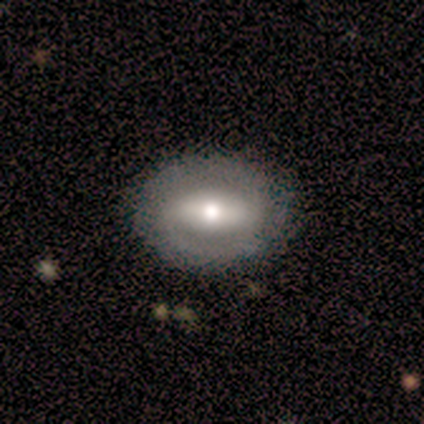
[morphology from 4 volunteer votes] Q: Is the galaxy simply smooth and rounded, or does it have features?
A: smooth — 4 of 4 (100%).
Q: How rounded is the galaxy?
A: in between — 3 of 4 (75%).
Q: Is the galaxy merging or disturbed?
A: none — 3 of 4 (75%).